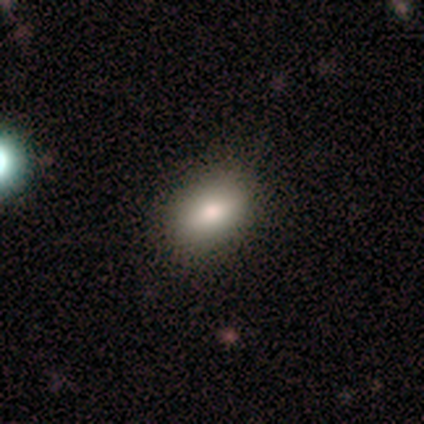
A smooth galaxy with no disk features (100%) that is in between round and cigar-shaped (80%).

Vote fractions:
- Smooth or featured? smooth: 100% / featured or disk: 0% / star or artifact: 0%
- How rounded? in between: 80% / cigar-shaped: 20% / round: 0%
- Merging? none: 60% / minor disturbance: 40% / major disturbance: 0% / merger: 0%